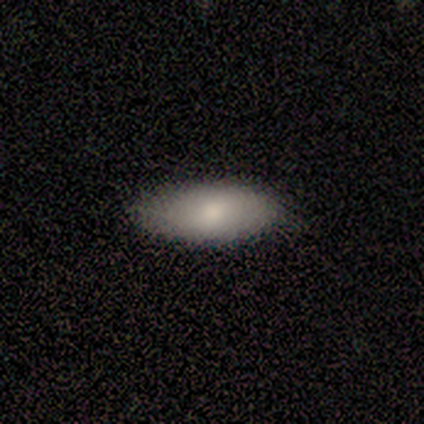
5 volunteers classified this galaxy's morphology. Smooth or featured?
  - smooth: 100% *
  - featured or disk: 0%
  - star or artifact: 0%
How rounded?
  - in between: 100% *
  - round: 0%
  - cigar-shaped: 0%
Merging?
  - none: 100% *
  - minor disturbance: 0%
  - major disturbance: 0%
  - merger: 0%